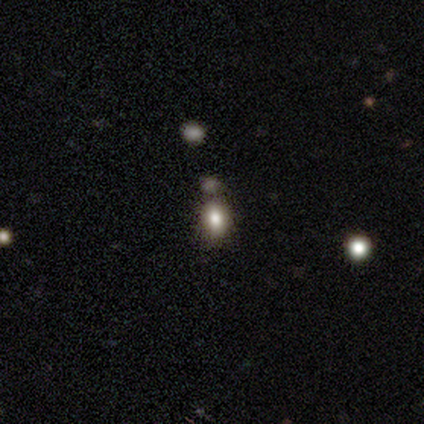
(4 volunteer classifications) Volunteers were most divided on "how rounded": in between: 75%, round: 25%, cigar-shaped: 0%. More confident: smooth or featured — smooth (100%); merging — none (75%).